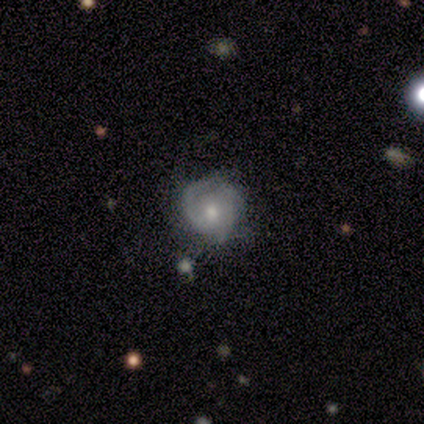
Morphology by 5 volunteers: type=featured or disk (40%, tied with star or artifact); edge-on=no (100%); bar=no (100%); spiral arms=yes (100%); winding=medium (50%, tied with loose); arm count=2 (50%, tied with 3); bulge=moderate (100%); merging=none (67%).